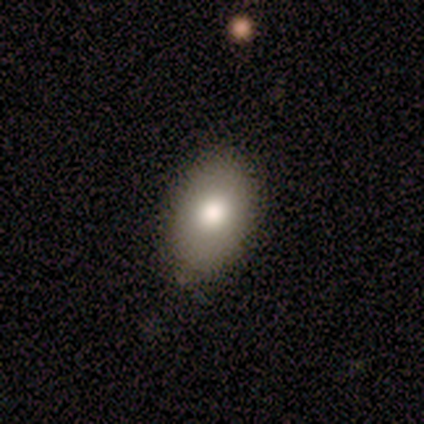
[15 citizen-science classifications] Morphology: type=smooth (80%); roundness=in between (92%); merging=none (67%).